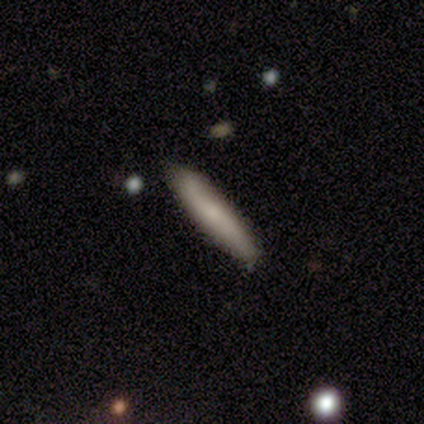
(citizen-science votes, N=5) smooth-or-featured: smooth: 80% | star or artifact: 20% | featured or disk: 0%
  how-rounded: in between: 50% (tied) | cigar-shaped: 50% (tied) | round: 0%
  merging: none: 100% | minor disturbance: 0% | major disturbance: 0% | merger: 0%